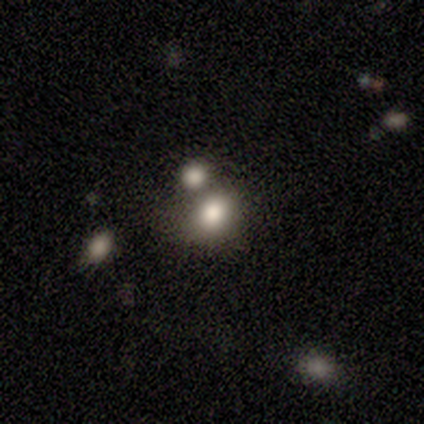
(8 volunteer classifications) This appears to be a smooth galaxy with no disk features (50%) that is in between round and cigar-shaped (100%). Merging: none (40%, tied with minor disturbance).